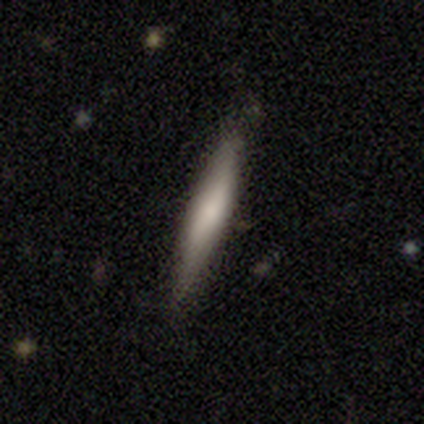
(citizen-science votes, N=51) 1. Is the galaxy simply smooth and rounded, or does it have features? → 61% smooth, 37% featured or disk, 2% star or artifact.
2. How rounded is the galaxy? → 90% cigar-shaped, 10% in between, 0% round.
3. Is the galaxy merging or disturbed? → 86% none, 14% minor disturbance, 0% major disturbance, 0% merger.